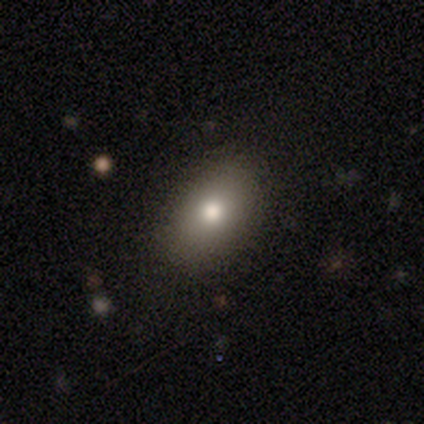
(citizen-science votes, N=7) smooth-or-featured: smooth: 71% | featured or disk: 29% | star or artifact: 0%
  how-rounded: in between: 100% | round: 0% | cigar-shaped: 0%
  merging: none: 86% | minor disturbance: 14% | major disturbance: 0% | merger: 0%